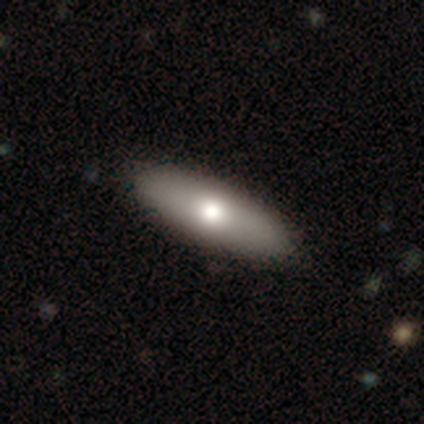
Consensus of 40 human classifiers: smooth 68%, featured or disk 25%, star or artifact 8%. Down the decision tree: how rounded — in between (67%); merging — none (70%).